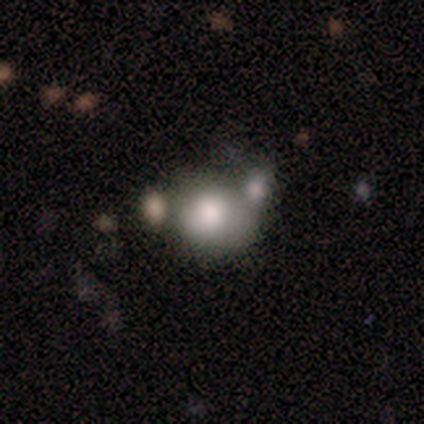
Q: Smooth or featured?
A: smooth (60%); runner-up: featured or disk (40%)
Q: How rounded?
A: in between (67%); runner-up: round (33%)
Q: Merging?
A: merger (60%); runner-up: none (20%)